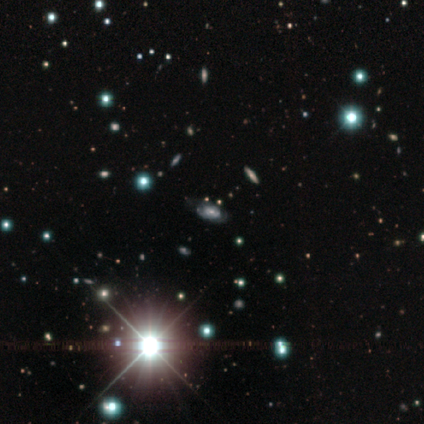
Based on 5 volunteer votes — Smooth or featured? 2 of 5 (40%, tied with star or artifact) said featured or disk. Edge-on disk? 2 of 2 (100%) said no. Bar? 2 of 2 (100%) said no. Spiral arms? 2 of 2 (100%) said yes. Spiral winding? 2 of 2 (100%) said tight. Spiral arm count? 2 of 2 (100%) said can't tell. Bulge size? 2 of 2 (100%) said moderate. Merging? 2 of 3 (67%) said minor disturbance.